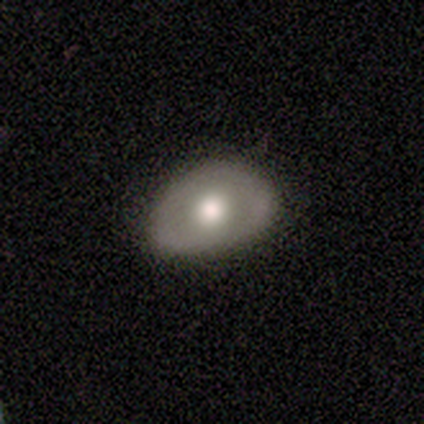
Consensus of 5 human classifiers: featured or disk 100%, smooth 0%, star or artifact 0%. Down the decision tree: edge-on disk — no (100%); bar — no (100%); spiral arms — no (100%); bulge size — moderate (80%); merging — minor disturbance (60%).